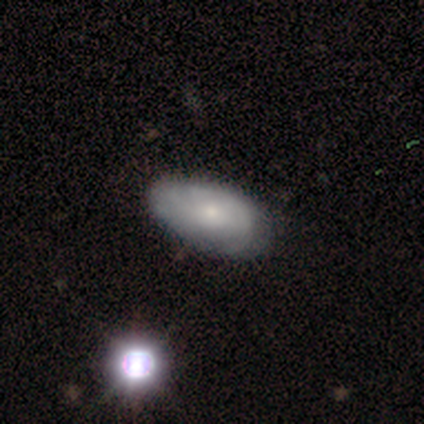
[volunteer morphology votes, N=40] Smooth or featured? smooth (48%, tied with featured or disk)
How rounded? in between (100%)
Merging? none (55%)